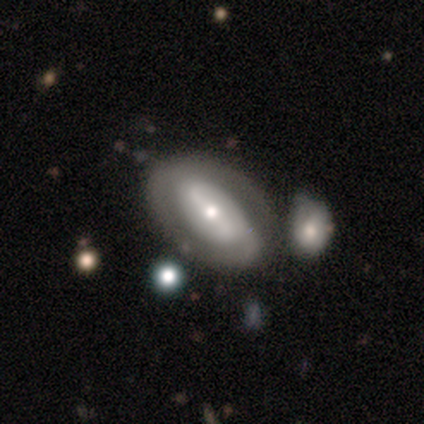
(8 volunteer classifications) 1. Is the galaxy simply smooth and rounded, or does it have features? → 88% featured or disk, 12% smooth, 0% star or artifact.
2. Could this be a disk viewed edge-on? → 86% no, 14% yes.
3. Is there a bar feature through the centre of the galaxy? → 50% strong (tied), 50% weak (tied), 0% no.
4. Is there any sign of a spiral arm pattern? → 50% yes (tied), 50% no (tied).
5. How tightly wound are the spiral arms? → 67% tight, 33% medium, 0% loose.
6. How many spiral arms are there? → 33% 1 (tied), 33% 2 (tied), 33% can't tell (tied), 0% 3, 0% 4, 0% more than 4.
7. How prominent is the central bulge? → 33% large (tied), 33% moderate (tied), 33% small (tied), 0% dominant, 0% none.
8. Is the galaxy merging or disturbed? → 62% none, 12% minor disturbance, 12% major disturbance, 12% merger.